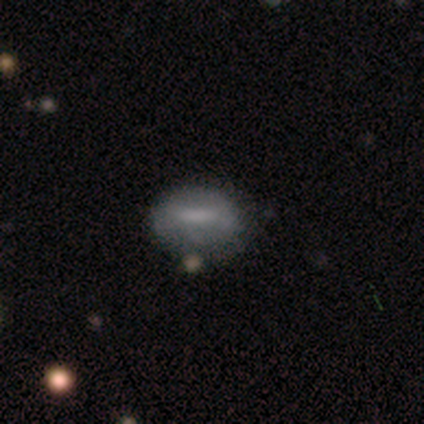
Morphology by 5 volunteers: type=smooth (60%); roundness=in between (100%); merging=none (60%).